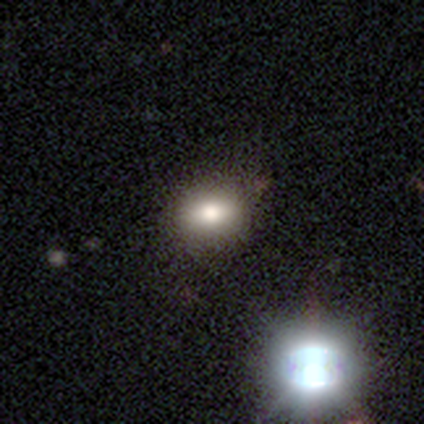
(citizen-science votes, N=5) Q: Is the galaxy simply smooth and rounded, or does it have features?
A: smooth — 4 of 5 (80%).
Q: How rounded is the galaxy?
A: in between — 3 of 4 (75%).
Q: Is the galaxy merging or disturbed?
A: none — 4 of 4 (100%).